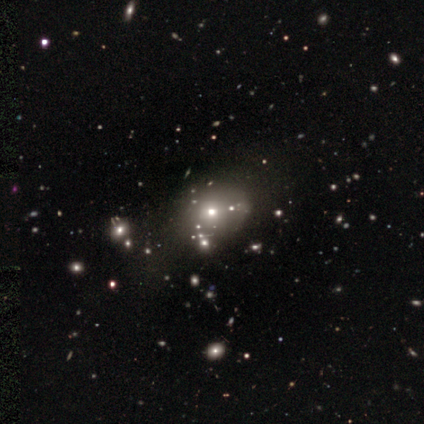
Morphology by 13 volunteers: A smooth galaxy with no disk features (54%) that is round (71%).

Vote fractions:
- Smooth or featured? smooth: 54% / star or artifact: 38% / featured or disk: 8%
- How rounded? round: 71% / in between: 29% / cigar-shaped: 0%
- Merging? none: 88% / major disturbance: 12% / minor disturbance: 0% / merger: 0%